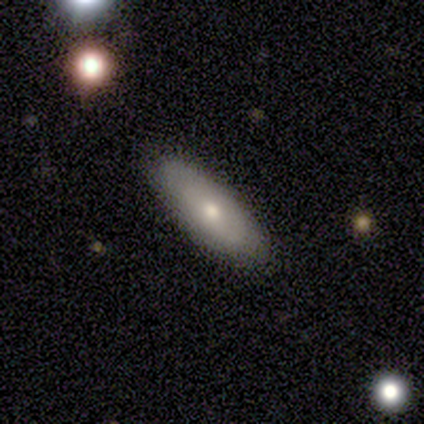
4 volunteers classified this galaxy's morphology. This is possibly a smooth galaxy (50%, tied with featured or disk). How rounded: possibly in between (50%, tied with cigar-shaped). Merging: clearly none (100%).